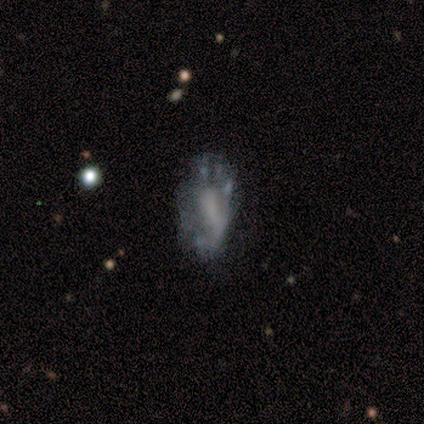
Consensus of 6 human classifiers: Smooth or featured? 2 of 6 (33%, tied with featured or disk and star or artifact) said smooth. How rounded? 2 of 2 (100%) said in between. Merging? 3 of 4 (75%) said major disturbance.